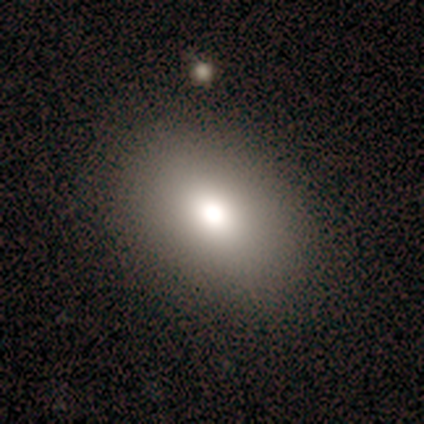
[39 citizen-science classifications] Volunteers were most divided on "merging": none: 83%, minor disturbance: 14%, major disturbance: 3%, merger: 0%. More confident: how rounded — in between (85%); smooth or featured — smooth (85%).